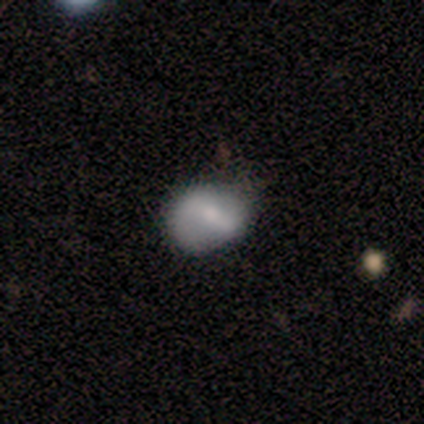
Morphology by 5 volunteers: Smooth or featured: smooth — 60% (featured or disk — 40%)
How rounded: in between — 67% (round — 33%)
Merging: minor disturbance — 80% (major disturbance — 20%)